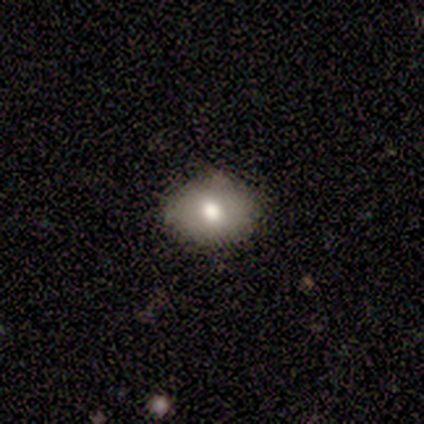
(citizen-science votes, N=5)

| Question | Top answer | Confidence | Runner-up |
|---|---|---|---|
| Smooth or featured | smooth | 80% | featured or disk (20%) |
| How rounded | round | 50% | tied: in between (50%) |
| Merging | none | 100% | — |